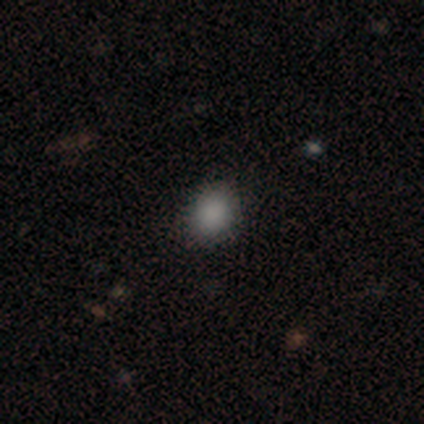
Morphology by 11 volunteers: This appears to be a smooth galaxy with no disk features (82%) that is round (56%). Merging: none (100%).